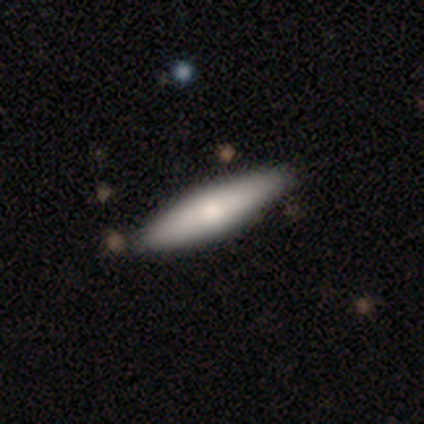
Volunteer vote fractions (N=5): Smooth or featured?
  - smooth: 80% *
  - featured or disk: 20%
  - star or artifact: 0%
How rounded?
  - cigar-shaped: 75% *
  - in between: 25%
  - round: 0%
Merging?
  - none: 80% *
  - minor disturbance: 20%
  - major disturbance: 0%
  - merger: 0%